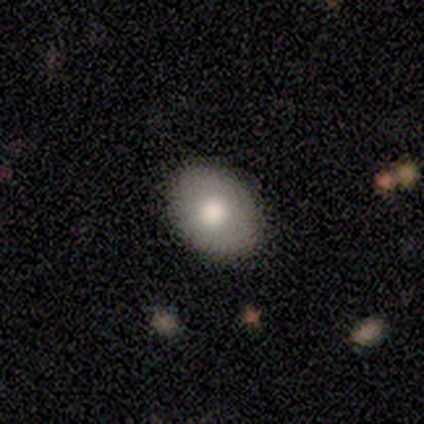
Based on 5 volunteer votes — Smooth or featured? 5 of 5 (100%) said smooth. How rounded? 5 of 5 (100%) said in between. Merging? 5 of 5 (100%) said none.